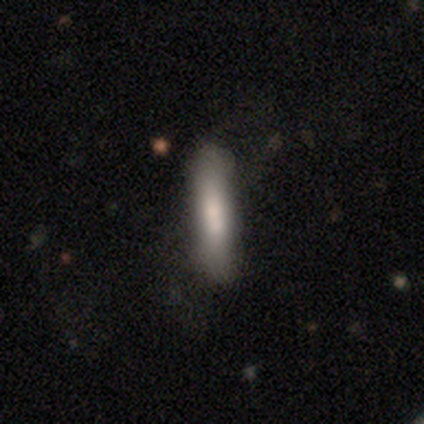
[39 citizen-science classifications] A smooth galaxy with no disk features (69%) that is cigar-shaped (81%).

Vote fractions:
- Smooth or featured? smooth: 69% / featured or disk: 31% / star or artifact: 0%
- How rounded? cigar-shaped: 81% / in between: 19% / round: 0%
- Merging? none: 46% / minor disturbance: 21% / major disturbance: 5% / merger: 0%